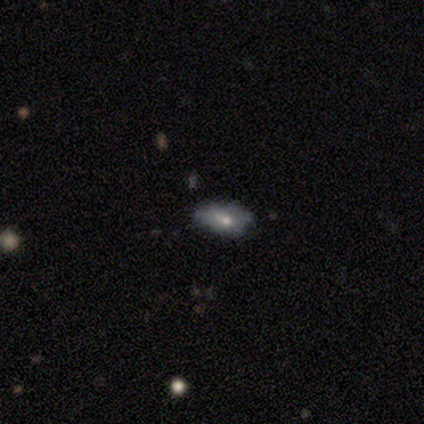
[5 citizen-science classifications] Q: Smooth or featured?
A: smooth (80%); runner-up: featured or disk (20%)
Q: How rounded?
A: in between (100%)
Q: Merging?
A: none (40%); tied with: minor disturbance (40%)